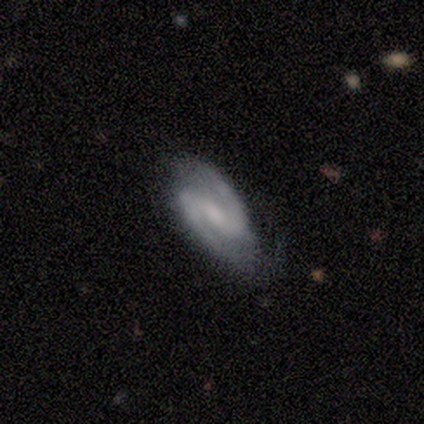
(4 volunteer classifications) Smooth or featured? featured or disk (100%)
Edge-on disk? no (100%)
Bar? weak (50%, tied with no)
Spiral arms? yes (100%)
Spiral winding? medium (75%)
Spiral arm count? 2 (100%)
Bulge size? small (50%)
Merging? none (100%)